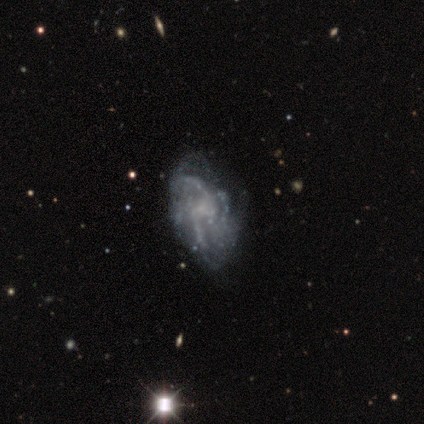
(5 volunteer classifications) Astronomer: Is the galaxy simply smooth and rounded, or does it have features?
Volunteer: featured or disk — 100%.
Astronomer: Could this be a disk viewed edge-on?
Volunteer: no — 100%.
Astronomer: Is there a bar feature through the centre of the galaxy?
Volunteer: no — 100%.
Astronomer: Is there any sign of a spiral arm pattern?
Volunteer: yes — 80%.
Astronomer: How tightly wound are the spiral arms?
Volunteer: loose — 75%.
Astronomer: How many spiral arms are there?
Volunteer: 2 — 50%.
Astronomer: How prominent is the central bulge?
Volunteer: none — 80%.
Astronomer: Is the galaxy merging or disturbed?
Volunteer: major disturbance — 60% (runner-up: none, 40%).